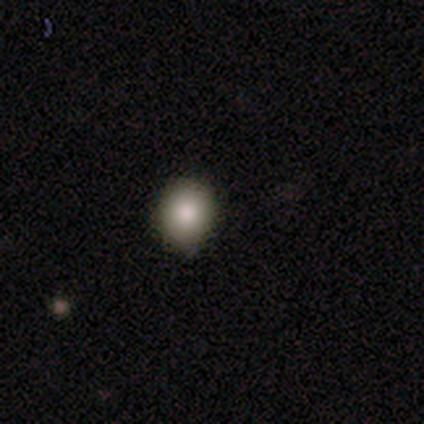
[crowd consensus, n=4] smooth_or_featured: smooth (p=0.75) [alt: featured or disk p=0.25]
how_rounded: round (p=0.67) [alt: in between p=0.33]
merging: none (p=0.75) [alt: minor disturbance p=0.25]